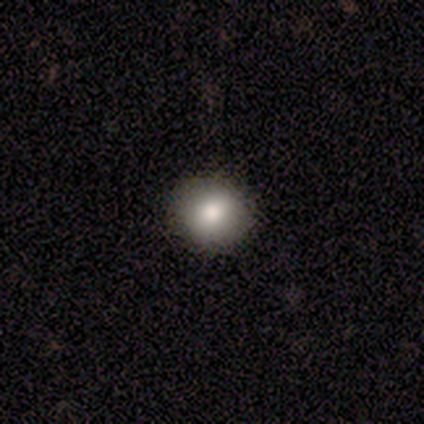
Smooth or featured? 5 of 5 (100%) said smooth. How rounded? 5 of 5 (100%) said round. Merging? 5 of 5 (100%) said none.